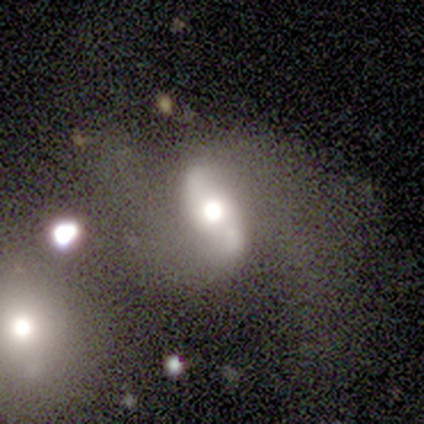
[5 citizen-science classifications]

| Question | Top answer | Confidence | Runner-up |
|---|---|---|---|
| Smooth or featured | featured or disk | 60% | smooth (40%) |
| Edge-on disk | no | 67% | yes (33%) |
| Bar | strong | 50% | tied: no (50%) |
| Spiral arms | yes | 100% | — |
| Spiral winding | medium | 50% | tied: loose (50%) |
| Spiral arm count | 2 | 100% | — |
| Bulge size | dominant | 50% | tied: moderate (50%) |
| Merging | none | 40% | tied: major disturbance (40%) |